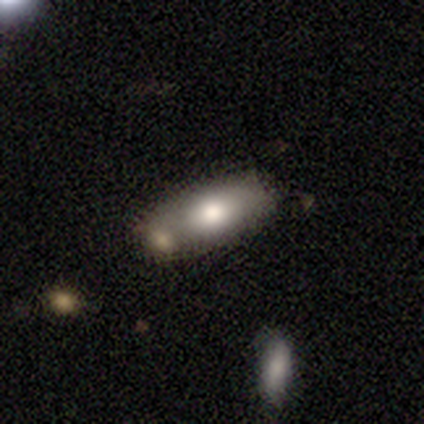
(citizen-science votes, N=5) Q: Smooth or featured?
A: smooth (80%); runner-up: featured or disk (20%)
Q: How rounded?
A: in between (100%)
Q: Merging?
A: none (80%); runner-up: merger (20%)